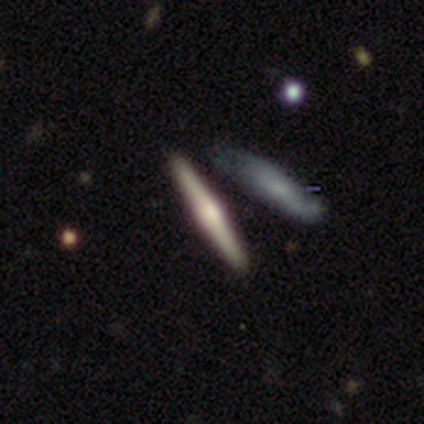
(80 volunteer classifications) Q: Smooth or featured?
A: featured or disk (71%); runner-up: smooth (22%)
Q: Edge-on disk?
A: yes (100%)
Q: Edge-on bulge?
A: rounded (70%); runner-up: boxy (18%)
Q: Merging?
A: none (41%); runner-up: merger (29%)